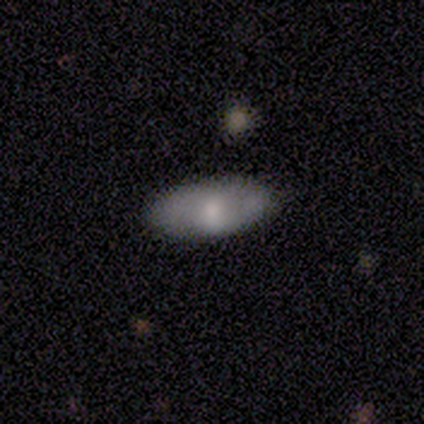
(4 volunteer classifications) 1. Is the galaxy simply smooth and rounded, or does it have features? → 100% smooth, 0% featured or disk, 0% star or artifact.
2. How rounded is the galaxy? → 100% in between, 0% round, 0% cigar-shaped.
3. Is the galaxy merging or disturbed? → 75% none, 25% minor disturbance, 0% major disturbance, 0% merger.